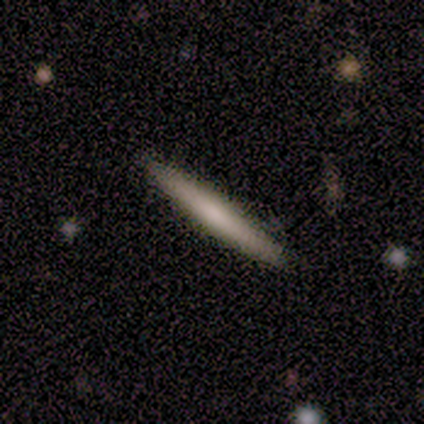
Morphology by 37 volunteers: A smooth galaxy with no disk features (54%) that is cigar-shaped (100%).

Vote fractions:
- Smooth or featured? smooth: 54% / featured or disk: 35% / star or artifact: 11%
- How rounded? cigar-shaped: 100% / round: 0% / in between: 0%
- Merging? none: 100% / minor disturbance: 0% / major disturbance: 0% / merger: 0%